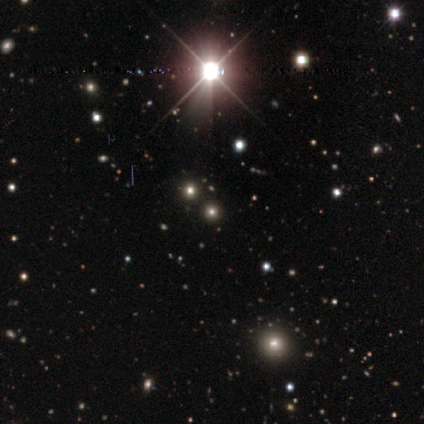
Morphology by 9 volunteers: Smooth or featured: star or artifact — 56% (smooth — 44%)